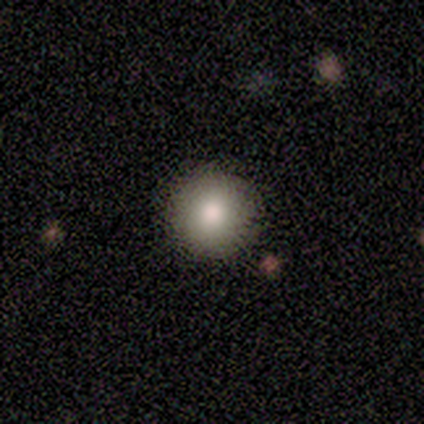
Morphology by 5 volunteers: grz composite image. It shows a smooth galaxy with no disk features (60%) that is round (100%). Merging: none (100%).